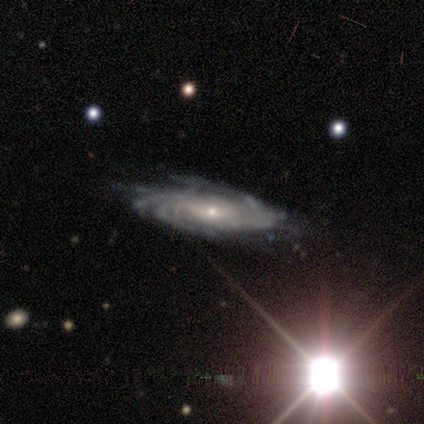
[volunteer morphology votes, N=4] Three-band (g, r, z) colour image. It shows a featured or disk galaxy (100%) with a weak bar (75%), tight (75%) spiral arms (100%) and a small central bulge (100%). Merging: none (75%).